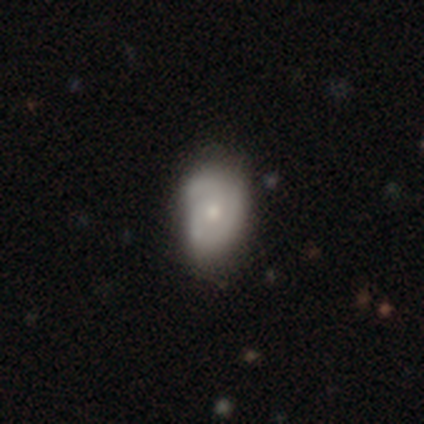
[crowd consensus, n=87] Q: Smooth or featured?
A: featured or disk (54%); runner-up: smooth (39%)
Q: Edge-on disk?
A: no (94%); runner-up: yes (6%)
Q: Bar?
A: no (82%); runner-up: weak (18%)
Q: Spiral arms?
A: yes (77%); runner-up: no (23%)
Q: Spiral winding?
A: tight (53%); runner-up: medium (32%)
Q: Spiral arm count?
A: 3 (50%); runner-up: 2 (26%)
Q: Bulge size?
A: small (55%); runner-up: moderate (45%)
Q: Merging?
A: none (54%); runner-up: minor disturbance (36%)